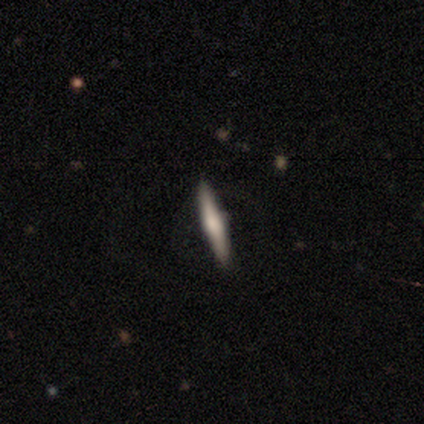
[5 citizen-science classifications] smooth-or-featured: featured or disk: 80% | smooth: 20% | star or artifact: 0%
  disk-edge-on: yes: 100% | no: 0%
    edge-on-bulge: rounded: 75% | boxy: 25% | none: 0%
  merging: none: 100% | minor disturbance: 0% | major disturbance: 0% | merger: 0%